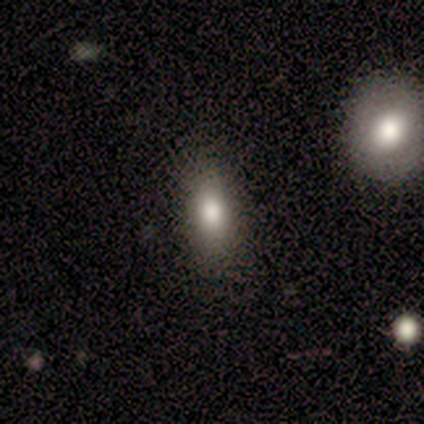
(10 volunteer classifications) Q: Smooth or featured?
A: smooth (80%); runner-up: featured or disk (10%)
Q: How rounded?
A: in between (75%); runner-up: cigar-shaped (25%)
Q: Merging?
A: none (89%); runner-up: minor disturbance (11%)